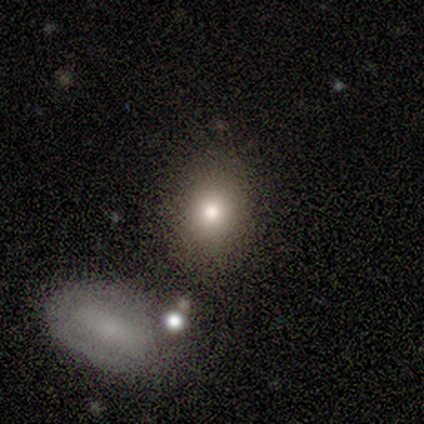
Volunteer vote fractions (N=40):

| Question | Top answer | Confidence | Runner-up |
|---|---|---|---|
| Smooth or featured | smooth | 65% | featured or disk (18%) |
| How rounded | round | 65% | in between (35%) |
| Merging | none | 70% | merger (15%) |